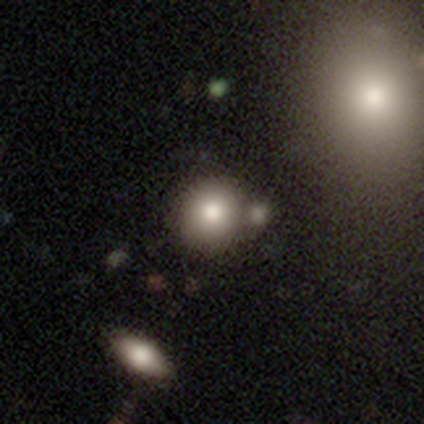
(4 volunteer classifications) Volunteers were most divided on "bulge size" (3-way tie): large: 33%, moderate: 33%, none: 33%, dominant: 0%, small: 0%. More confident: edge-on disk — no (100%); bar — no (100%); merging — none (100%); smooth or featured — featured or disk (75%); spiral arms — no (67%).